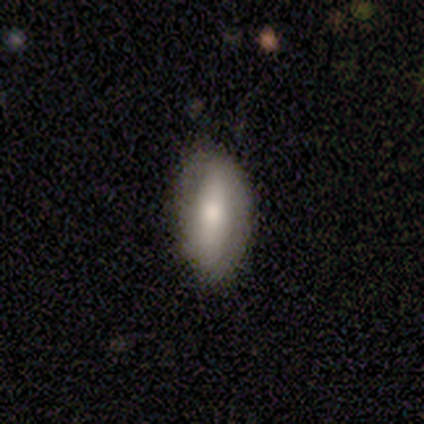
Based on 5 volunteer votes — featured or disk 60%, smooth 40%, star or artifact 0%. Down the decision tree: edge-on disk — no (100%); bar — no (100%); spiral arms — no (100%); bulge size — moderate (67%); merging — none (60%).